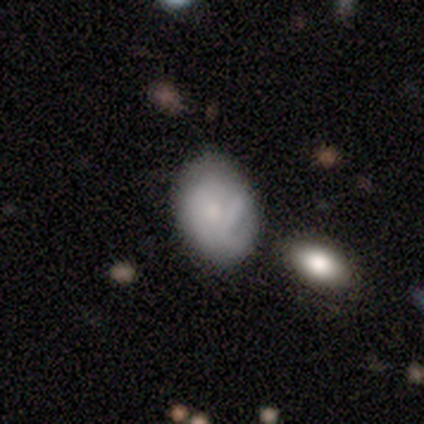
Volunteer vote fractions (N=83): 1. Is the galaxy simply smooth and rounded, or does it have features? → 64% smooth, 29% featured or disk, 7% star or artifact.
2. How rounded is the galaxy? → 81% in between, 19% round, 0% cigar-shaped.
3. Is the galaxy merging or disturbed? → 60% none, 27% minor disturbance, 8% major disturbance, 5% merger.